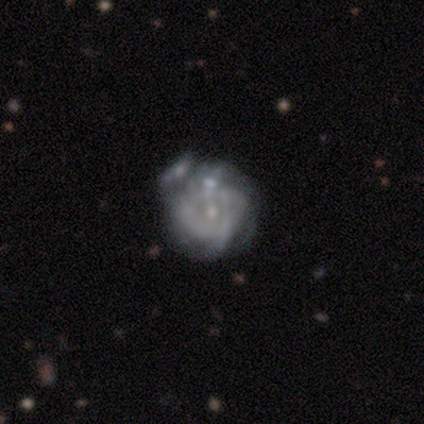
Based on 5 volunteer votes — Overall: featured or disk (60%; star or artifact 40%). Edge-on disk: no (100%). Bar: weak (67%; no 33%). Spiral arms: no (100%). Bulge size: small (67%; moderate 33%). Merging: none (67%; major disturbance 33%).